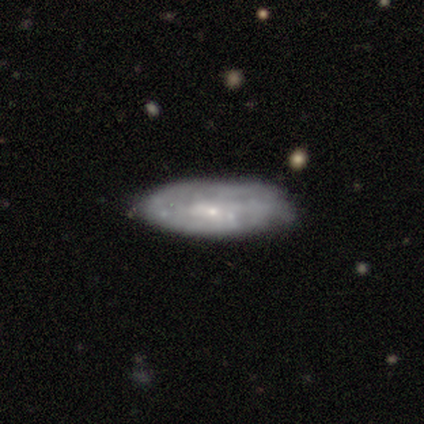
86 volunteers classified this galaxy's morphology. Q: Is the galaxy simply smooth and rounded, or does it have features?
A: featured or disk — 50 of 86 (58%).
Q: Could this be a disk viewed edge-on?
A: no — 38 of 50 (76%).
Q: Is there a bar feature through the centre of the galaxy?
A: no — 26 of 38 (68%).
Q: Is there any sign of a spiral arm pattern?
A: no — 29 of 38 (76%).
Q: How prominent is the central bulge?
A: small — 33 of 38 (87%).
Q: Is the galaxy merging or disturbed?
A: none — 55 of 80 (69%).